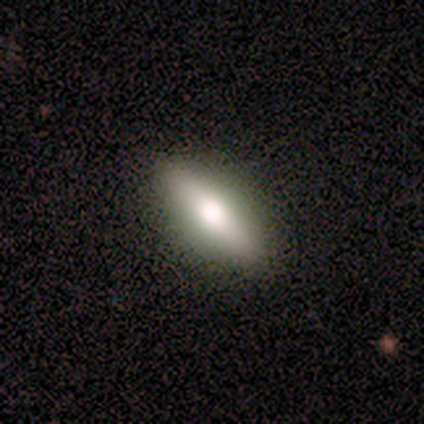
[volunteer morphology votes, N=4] smooth_or_featured: smooth (p=0.50) [tied with: featured or disk p=0.50]
how_rounded: in between (p=1.00)
merging: none (p=0.75) [alt: minor disturbance p=0.25]